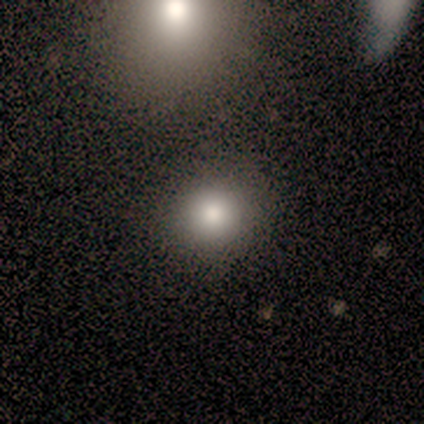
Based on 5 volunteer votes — This appears to be a smooth galaxy with no disk features (80%) that is round (75%). Merging: none (60%).